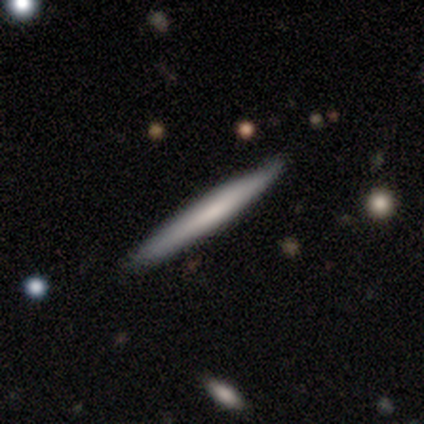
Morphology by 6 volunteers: A smooth galaxy with no disk features (67%) that is cigar-shaped (100%). Merging: none (83%).